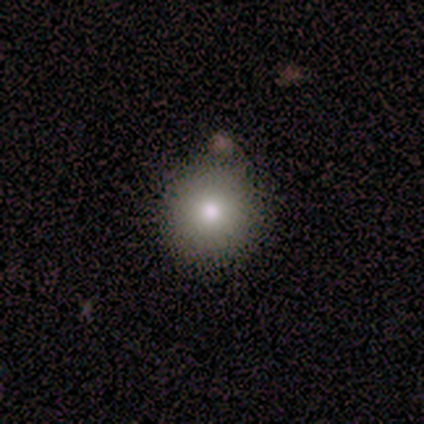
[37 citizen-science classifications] Overall: smooth (84%). How rounded: round (87%). Merging: none (88%).